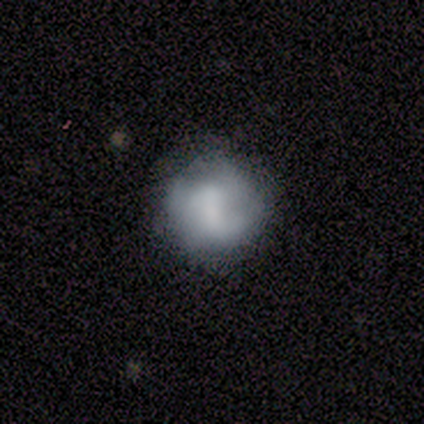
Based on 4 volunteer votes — Volunteers were most divided on "smooth or featured" (2-way tie): smooth: 50%, featured or disk: 50%, star or artifact: 0%; "how rounded" (2-way tie): round: 50%, in between: 50%, cigar-shaped: 0%. More confident: merging — none (75%).